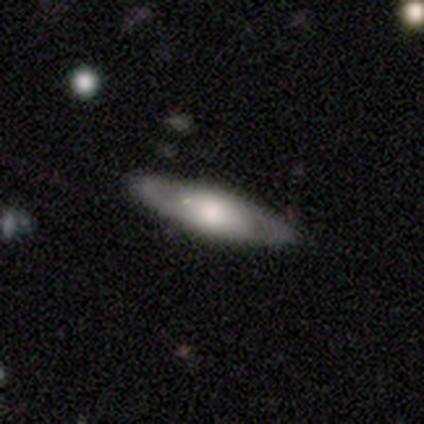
featured or disk 54%, smooth 44%, star or artifact 2%. Down the decision tree: edge-on disk — no (64%); bar — no (57%); spiral arms — yes (50%, tied with no); spiral arm count — 2 (71%); spiral winding — medium (57%); bulge size — large (50%); merging — none (90%).